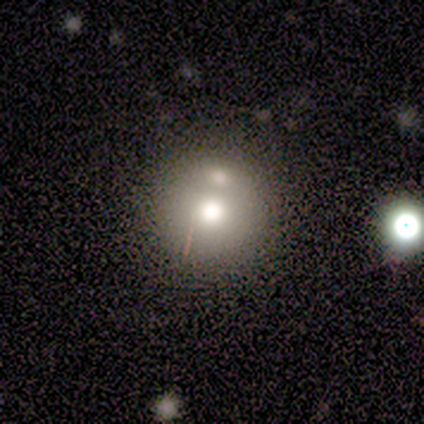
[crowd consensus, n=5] Smooth or featured: smooth — 60% (featured or disk — 40%)
How rounded: round — 100%
Merging: none — 80% (merger — 20%)